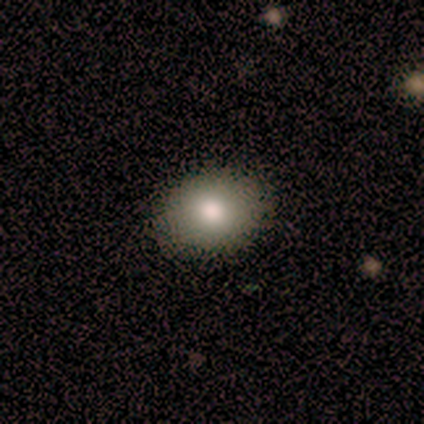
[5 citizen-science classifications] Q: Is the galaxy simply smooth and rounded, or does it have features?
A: smooth — 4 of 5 (80%).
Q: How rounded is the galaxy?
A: round — 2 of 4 (50%, tied with in between).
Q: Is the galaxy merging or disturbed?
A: none — 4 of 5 (80%).